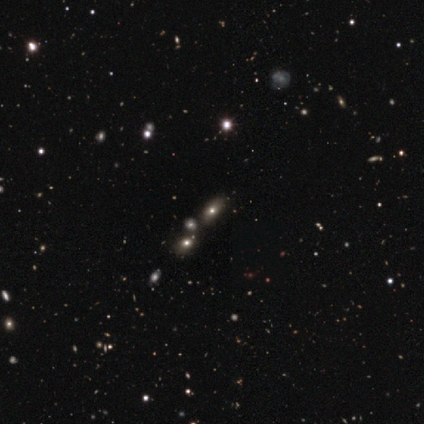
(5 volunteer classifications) Smooth or featured: star or artifact — 60% (smooth — 20%)